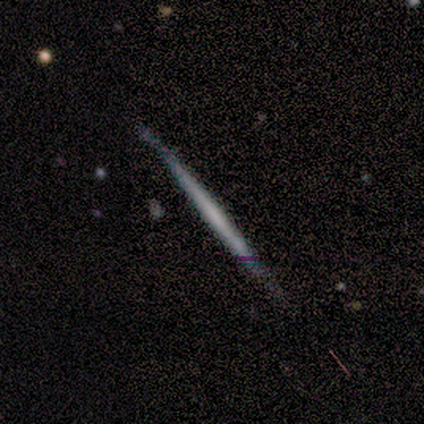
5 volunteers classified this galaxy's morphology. Q: Smooth or featured?
A: featured or disk (60%); runner-up: smooth (40%)
Q: Edge-on disk?
A: yes (100%)
Q: Edge-on bulge?
A: none (67%); runner-up: rounded (33%)
Q: Merging?
A: none (60%); runner-up: minor disturbance (40%)